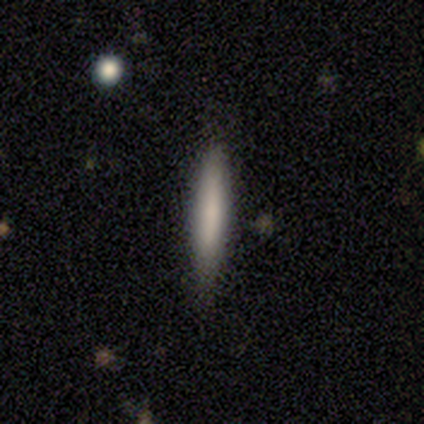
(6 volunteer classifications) Volunteers were most divided on "merging": none: 67%, minor disturbance: 17%, major disturbance: 17%, merger: 0%. More confident: how rounded — cigar-shaped (100%); smooth or featured — smooth (83%).